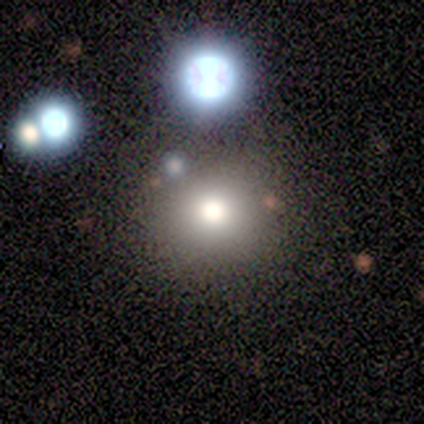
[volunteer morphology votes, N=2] smooth-or-featured: smooth: 50% (tied) | featured or disk: 50% (tied) | star or artifact: 0%
  how-rounded: round: 100% | in between: 0% | cigar-shaped: 0%
  merging: none: 100% | minor disturbance: 0% | major disturbance: 0% | merger: 0%